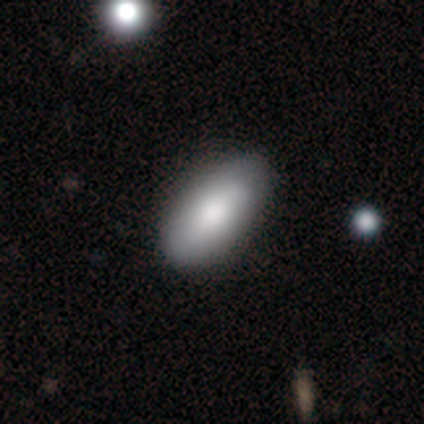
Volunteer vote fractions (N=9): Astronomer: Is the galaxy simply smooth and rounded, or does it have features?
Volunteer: featured or disk — 56% (runner-up: smooth, 44%).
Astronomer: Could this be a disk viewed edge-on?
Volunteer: no — 60% (runner-up: yes, 40%).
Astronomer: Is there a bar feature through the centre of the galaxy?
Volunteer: no — 67%.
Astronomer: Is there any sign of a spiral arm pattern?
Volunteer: no — 67%.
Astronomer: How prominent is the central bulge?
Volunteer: moderate — 67%.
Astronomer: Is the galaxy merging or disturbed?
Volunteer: none — 100%.